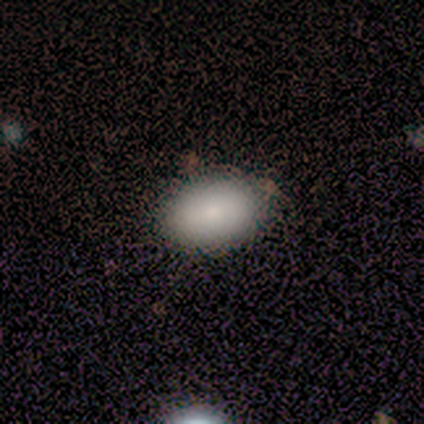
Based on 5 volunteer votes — Smooth or featured? 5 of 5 (100%) said smooth. How rounded? 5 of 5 (100%) said in between. Merging? 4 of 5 (80%) said none.